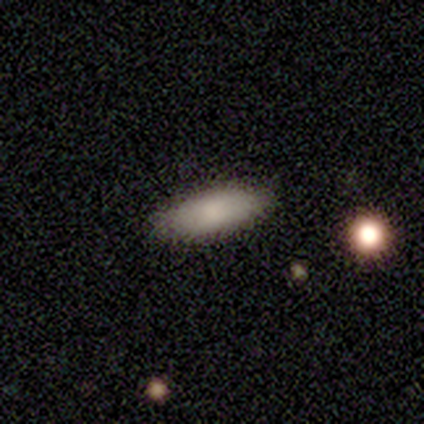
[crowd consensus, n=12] smooth 100%, featured or disk 0%, star or artifact 0%. Down the decision tree: how rounded — in between (67%); merging — none (100%).